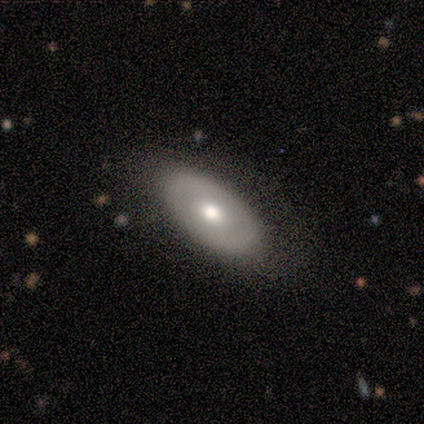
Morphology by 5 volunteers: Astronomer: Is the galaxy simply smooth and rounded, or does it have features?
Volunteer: smooth — 60% (runner-up: featured or disk, 40%).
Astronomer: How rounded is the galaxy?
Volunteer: in between — 67%.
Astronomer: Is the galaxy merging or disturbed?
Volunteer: none — 80%.